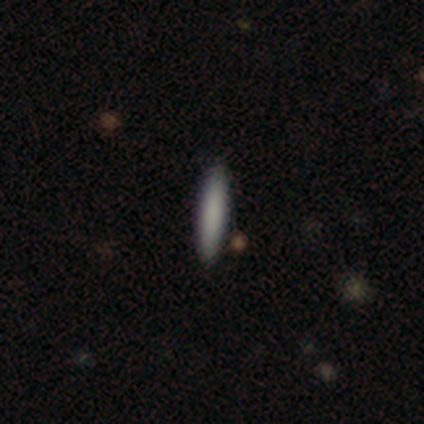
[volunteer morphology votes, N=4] Consensus on every question: smooth or featured — smooth (100%); how rounded — cigar-shaped (100%); merging — none (100%).